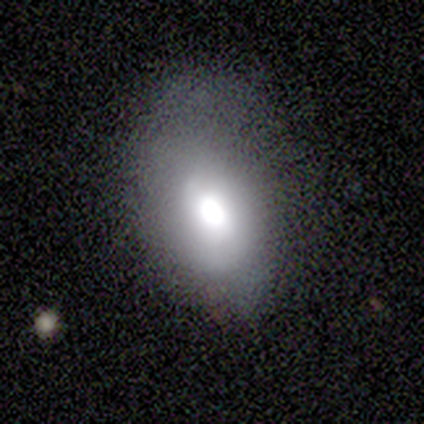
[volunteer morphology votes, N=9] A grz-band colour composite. It shows a smooth galaxy with no disk features (44%) that is in between round and cigar-shaped (100%). Merging: none (43%, tied with minor disturbance).